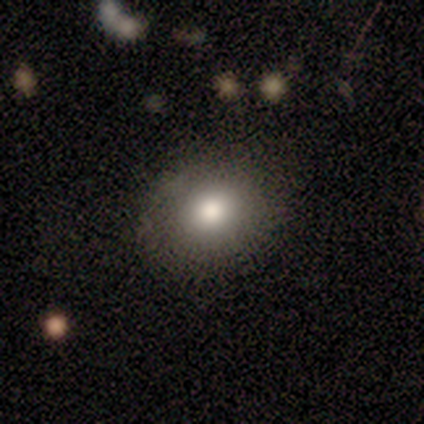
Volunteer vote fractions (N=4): A smooth galaxy with no disk features (75%) that is round (67%).

Vote fractions:
- Smooth or featured? smooth: 75% / featured or disk: 25% / star or artifact: 0%
- How rounded? round: 67% / in between: 33% / cigar-shaped: 0%
- Merging? none: 100% / minor disturbance: 0% / major disturbance: 0% / merger: 0%